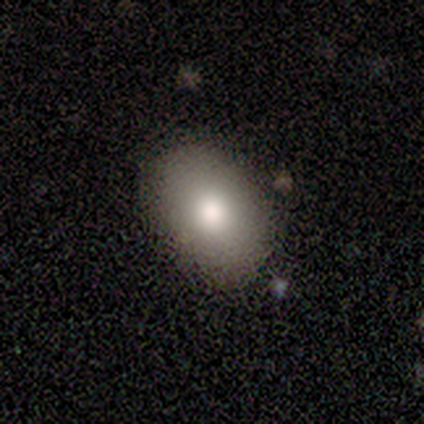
smooth-or-featured: smooth: 83% | star or artifact: 17% | featured or disk: 0%
  how-rounded: in between: 60% | round: 40% | cigar-shaped: 0%
  merging: none: 80% | major disturbance: 20% | minor disturbance: 0% | merger: 0%